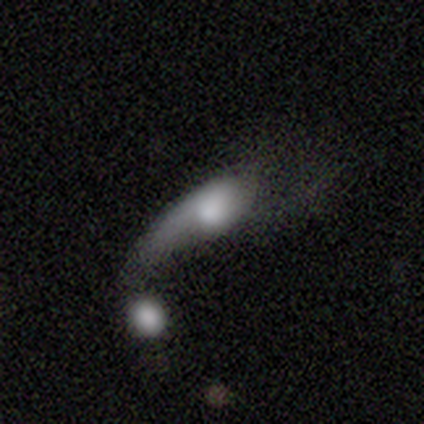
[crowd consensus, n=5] A featured or disk galaxy (80%) with no bar (100%), 1 (50%, tied with 2) loose (100%) spiral arms (50%, tied with no) and a large central bulge (50%, tied with none). Merging: merger (60%).